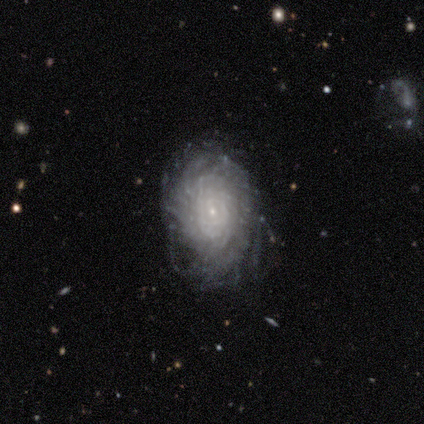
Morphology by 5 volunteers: smooth_or_featured: featured or disk (p=0.80) [alt: smooth p=0.20]
disk_edge_on: no (p=1.00)
bar: no (p=1.00)
has_spiral_arms: yes (p=1.00)
spiral_winding: tight (p=0.75) [alt: loose p=0.25]
spiral_arm_count: more than 4 (p=0.75) [alt: can't tell p=0.25]
bulge_size: small (p=1.00)
merging: none (p=0.80) [alt: minor disturbance p=0.20]